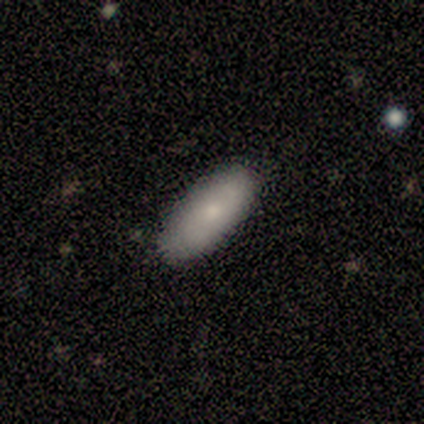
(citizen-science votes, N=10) A smooth galaxy with no disk features (60%) that is in between round and cigar-shaped (100%). Merging: none (100%).